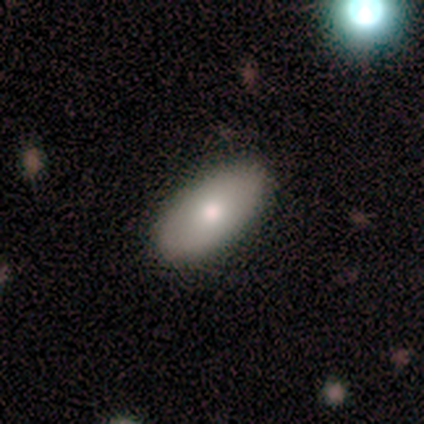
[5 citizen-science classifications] Morphology: type=smooth (60%); roundness=in between (100%); merging=none (80%).